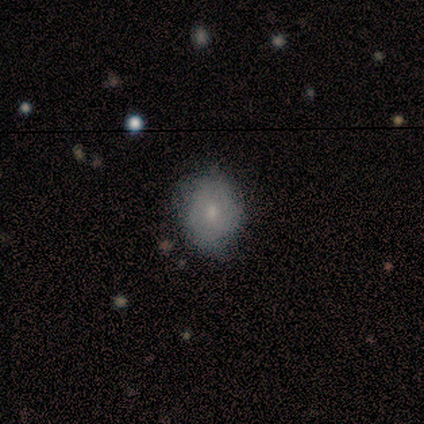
Smooth or featured? 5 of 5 (100%) said smooth. How rounded? 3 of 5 (60%) said in between. Merging? 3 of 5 (60%) said minor disturbance.